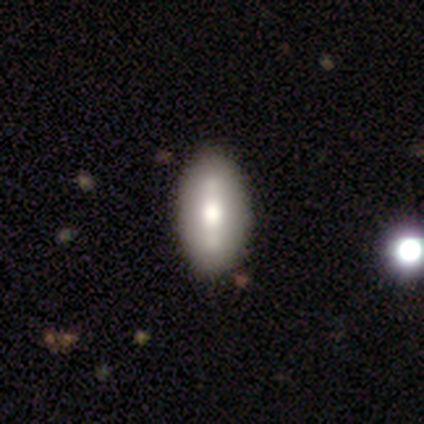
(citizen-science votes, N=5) A featured or disk galaxy (60%) viewed edge-on (67%) with a boxy central bulge (100%).

Vote fractions:
- Smooth or featured? featured or disk: 60% / smooth: 40% / star or artifact: 0%
- Edge-on disk? yes: 67% / no: 33%
- Edge-on bulge? boxy: 100% / none: 0% / rounded: 0%
- Merging? none: 100% / minor disturbance: 0% / major disturbance: 0% / merger: 0%